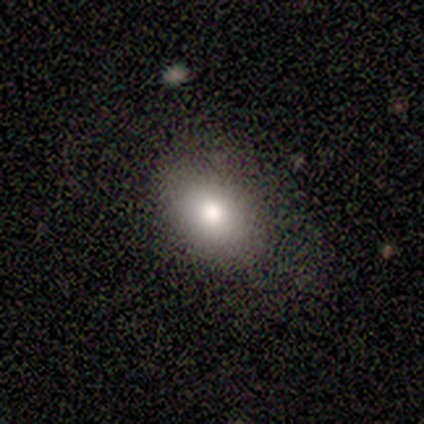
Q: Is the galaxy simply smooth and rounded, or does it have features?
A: smooth — 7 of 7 (100%).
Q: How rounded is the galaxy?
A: in between — 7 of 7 (100%).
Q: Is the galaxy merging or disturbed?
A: none — 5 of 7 (71%).